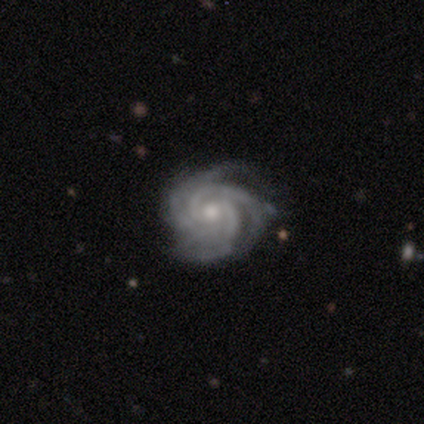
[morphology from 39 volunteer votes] Overall: featured or disk (95%). Edge-on disk: no (97%). Bar: no (64%; weak 31%). Spiral arms: yes (100%). Spiral arm count: 3 (33%; 4 31%). Spiral winding: tight (72%). Bulge size: moderate (67%; small 31%). Merging: none (81%).